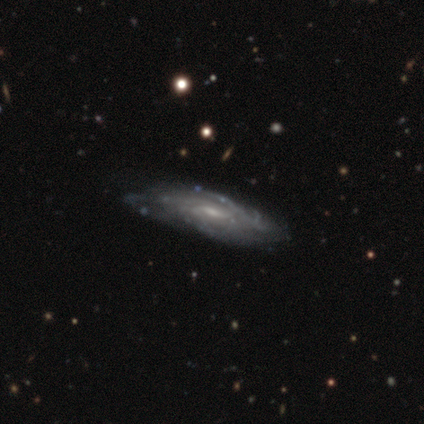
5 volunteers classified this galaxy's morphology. Volunteers were most divided on "edge-on disk": no: 60%, yes: 40%. More confident: smooth or featured — featured or disk (100%); spiral arms — yes (100%); merging — none (80%); bar — no (67%); spiral winding — tight (67%); spiral arm count — can't tell (67%); bulge size — small (67%).